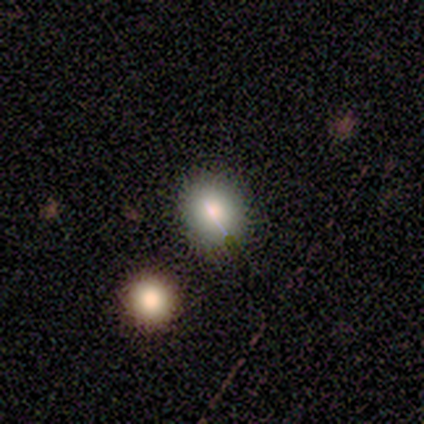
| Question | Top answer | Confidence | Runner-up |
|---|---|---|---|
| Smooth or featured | smooth | 60% | featured or disk (20%) |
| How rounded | round | 67% | in between (33%) |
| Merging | none | 75% | minor disturbance (25%) |